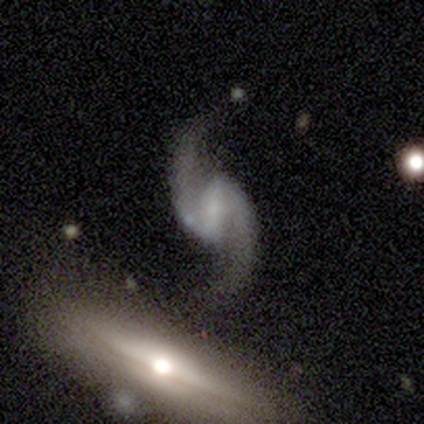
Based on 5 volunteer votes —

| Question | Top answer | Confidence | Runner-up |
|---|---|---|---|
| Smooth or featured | featured or disk | 100% | — |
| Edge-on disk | no | 100% | — |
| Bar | weak | 40% | tied: no (40%) |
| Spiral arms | yes | 80% | no (20%) |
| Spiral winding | medium | 50% | tied: loose (50%) |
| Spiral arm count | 2 | 100% | — |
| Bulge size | none | 60% | moderate (20%) |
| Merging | none | 60% | major disturbance (40%) |